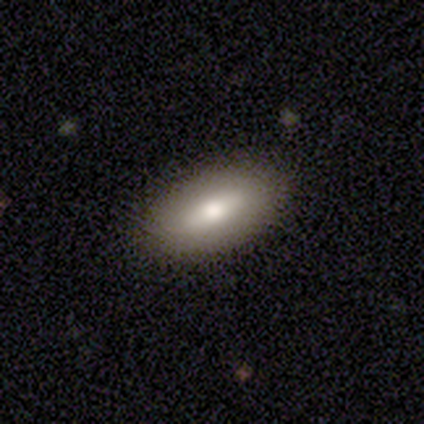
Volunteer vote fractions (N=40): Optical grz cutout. It shows a smooth galaxy with no disk features (68%) that is in between round and cigar-shaped (96%). Merging: none (89%).